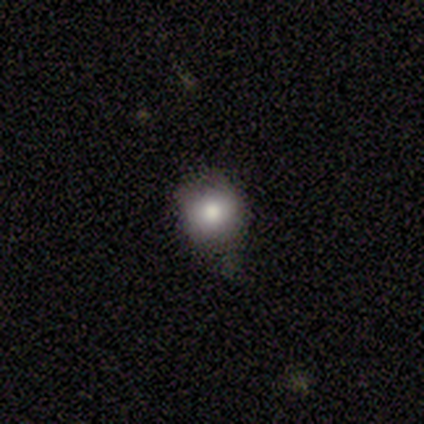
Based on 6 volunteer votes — Overall: smooth (83%). How rounded: round (60%; in between 20%). Merging: none (60%; minor disturbance 40%).